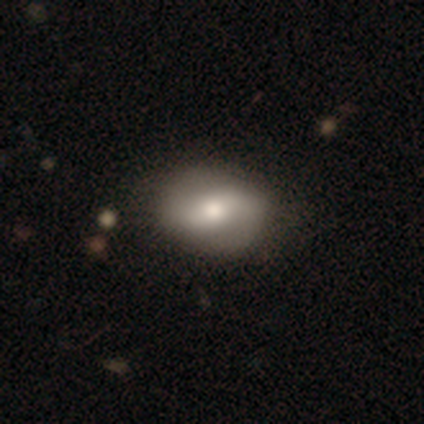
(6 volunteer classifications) Overall: featured or disk (67%; smooth 33%). Edge-on disk: no (100%). Bar: weak (75%). Spiral arms: yes (100%). Spiral arm count: 2 (50%; 1 25%). Spiral winding: medium (50%, tied with loose). Bulge size: moderate (75%). Merging: none (83%).